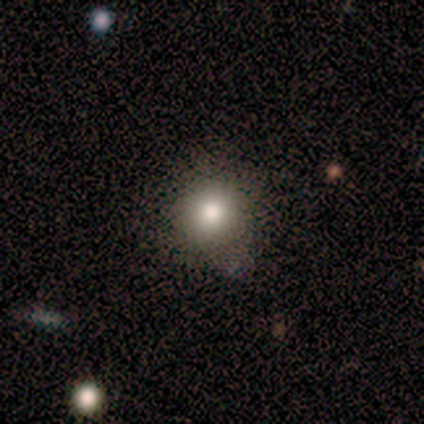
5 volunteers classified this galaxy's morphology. A smooth galaxy with no disk features (100%) that is round (100%).

Vote fractions:
- Smooth or featured? smooth: 100% / featured or disk: 0% / star or artifact: 0%
- How rounded? round: 100% / in between: 0% / cigar-shaped: 0%
- Merging? none: 100% / minor disturbance: 0% / major disturbance: 0% / merger: 0%